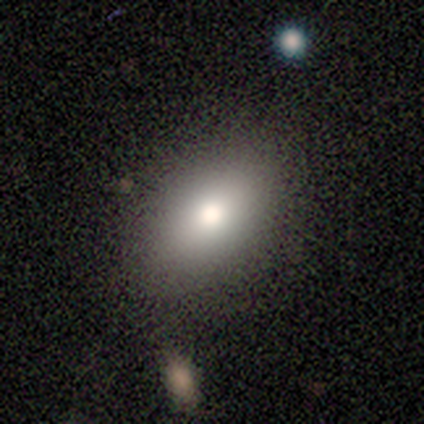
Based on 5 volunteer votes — smooth-or-featured: smooth: 60% | featured or disk: 40% | star or artifact: 0%
  how-rounded: in between: 100% | round: 0% | cigar-shaped: 0%
  merging: none: 80% | minor disturbance: 20% | major disturbance: 0% | merger: 0%